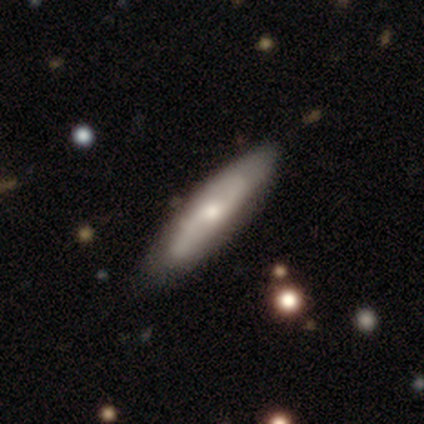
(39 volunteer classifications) This is possibly a featured or disk galaxy (56%). It is possibly not viewed edge-on (55%). Bar: likely no (67%). Spiral arm pattern: likely yes (75%). Spiral arm count: likely 2 (67%). Spiral winding: marginally medium (44%). Central bulge: possibly moderate (50%). Merging: likely none (78%).